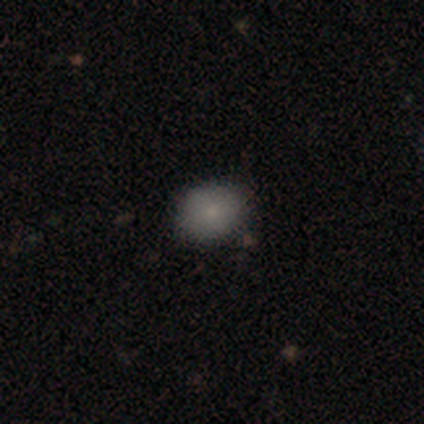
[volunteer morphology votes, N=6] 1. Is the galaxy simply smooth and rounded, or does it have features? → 83% smooth, 17% featured or disk, 0% star or artifact.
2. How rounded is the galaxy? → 60% in between, 40% round, 0% cigar-shaped.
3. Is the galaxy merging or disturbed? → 67% none, 33% minor disturbance, 0% major disturbance, 0% merger.